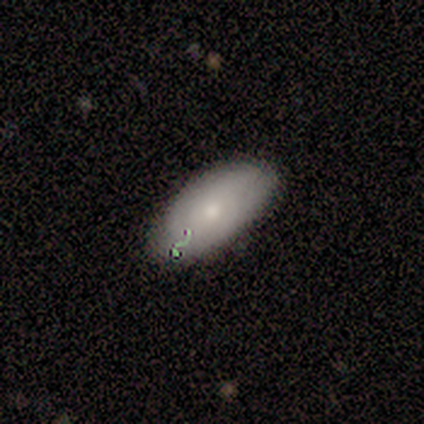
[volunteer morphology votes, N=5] Volunteers were most divided on "spiral arms" (2-way tie): yes: 50%, no: 50%. More confident: bar — no (100%); spiral winding — tight (100%); spiral arm count — can't tell (100%); bulge size — small (100%); merging — none (100%); edge-on disk — no (67%); smooth or featured — featured or disk (60%).